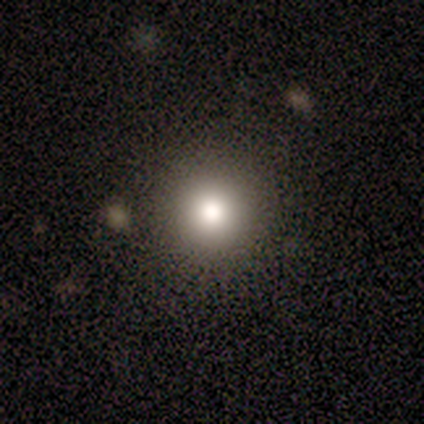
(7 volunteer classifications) Volunteers were most divided on "merging": none: 83%, minor disturbance: 17%, major disturbance: 0%, merger: 0%. More confident: how rounded — round (100%); smooth or featured — smooth (86%).